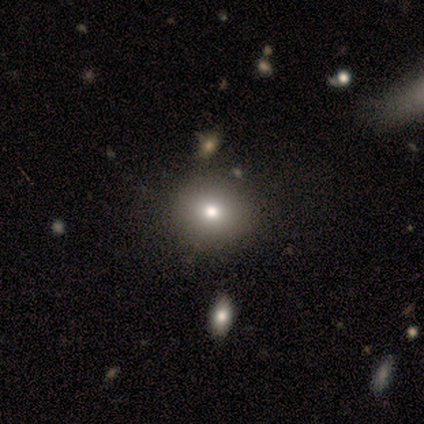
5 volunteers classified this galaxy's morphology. Q: Smooth or featured?
A: smooth (60%); runner-up: featured or disk (40%)
Q: How rounded?
A: round (100%)
Q: Merging?
A: none (80%); runner-up: minor disturbance (20%)